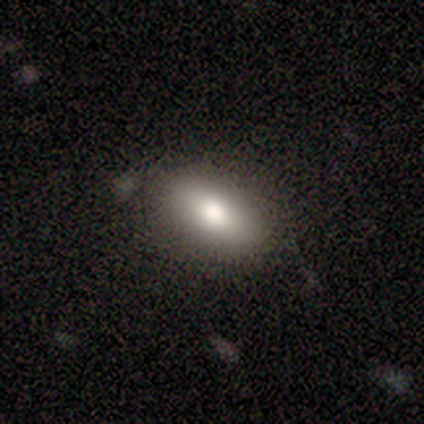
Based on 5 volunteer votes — Smooth or featured?
  - smooth: 80% *
  - featured or disk: 20%
  - star or artifact: 0%
How rounded?
  - in between: 75% *
  - cigar-shaped: 25%
  - round: 0%
Merging?
  - none: 100% *
  - minor disturbance: 0%
  - major disturbance: 0%
  - merger: 0%